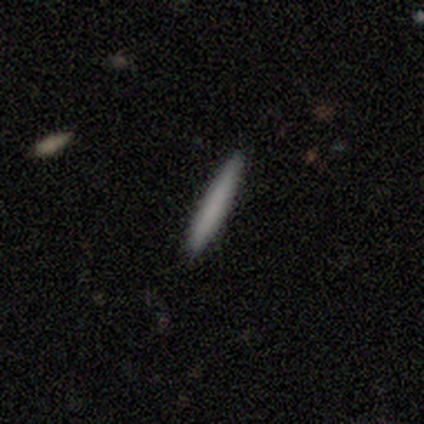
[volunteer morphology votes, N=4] Smooth or featured: smooth — 100%
How rounded: cigar-shaped — 100%
Merging: none — 100%